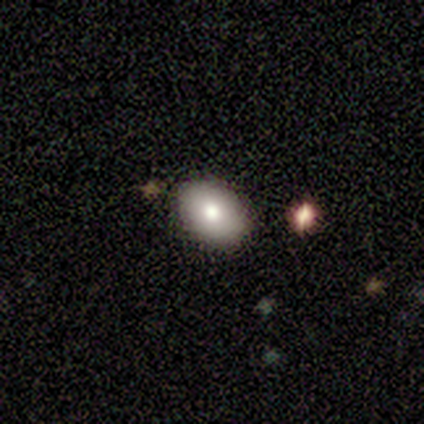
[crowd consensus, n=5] Overall: smooth (60%; featured or disk 40%). How rounded: in between (100%). Merging: none (100%).